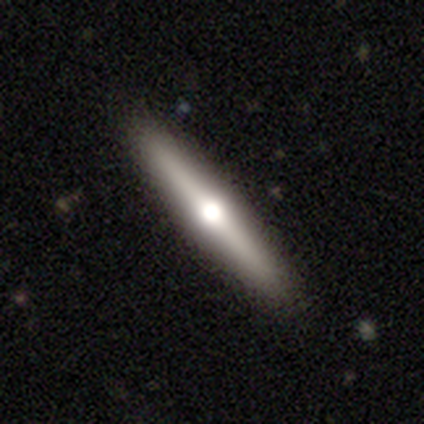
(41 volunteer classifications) featured or disk 61%, smooth 32%, star or artifact 7%. Down the decision tree: edge-on disk — yes (96%); edge-on bulge — rounded (92%); merging — none (89%).